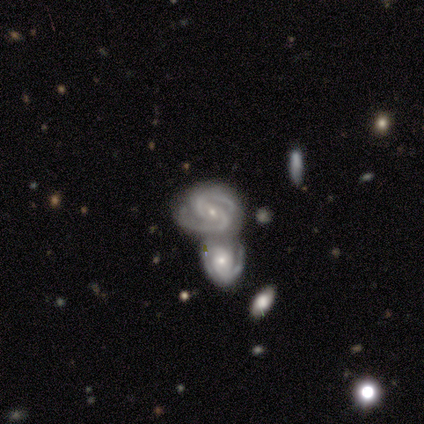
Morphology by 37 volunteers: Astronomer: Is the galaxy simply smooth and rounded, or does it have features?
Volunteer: featured or disk — 89%.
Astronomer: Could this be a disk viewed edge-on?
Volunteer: no — 100%.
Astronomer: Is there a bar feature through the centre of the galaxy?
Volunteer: no — 39% (runner-up: weak, 36%).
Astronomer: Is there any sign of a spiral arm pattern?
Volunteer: yes — 100%.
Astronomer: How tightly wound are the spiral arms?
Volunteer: tight — 48% (runner-up: medium, 45%).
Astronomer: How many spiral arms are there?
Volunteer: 2 — 97%.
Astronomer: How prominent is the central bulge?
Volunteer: small — 79%.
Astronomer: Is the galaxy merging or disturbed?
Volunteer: merger — 65%.